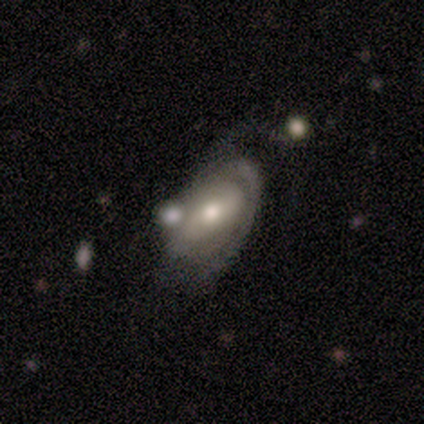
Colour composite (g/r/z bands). It shows a featured or disk galaxy (71%) with a weak bar (50%), 2 (35%) tight (50%) spiral arms (83%) and a moderate central bulge (67%). Merging: none (37%).